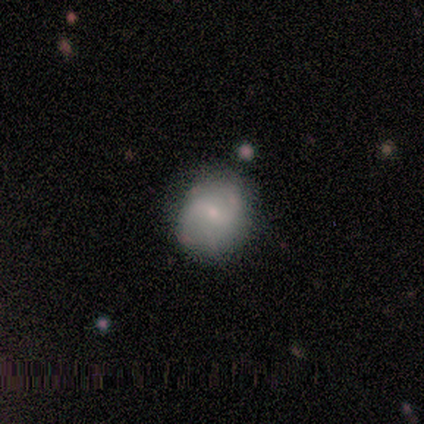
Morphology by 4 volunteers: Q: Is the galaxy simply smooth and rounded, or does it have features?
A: featured or disk — 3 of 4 (75%).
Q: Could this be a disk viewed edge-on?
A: no — 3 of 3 (100%).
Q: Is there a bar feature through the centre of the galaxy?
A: no — 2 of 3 (67%).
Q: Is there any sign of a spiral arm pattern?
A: yes — 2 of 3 (67%).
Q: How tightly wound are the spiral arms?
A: medium — 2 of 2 (100%).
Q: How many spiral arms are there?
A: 2 — 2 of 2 (100%).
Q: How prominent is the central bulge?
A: small — 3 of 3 (100%).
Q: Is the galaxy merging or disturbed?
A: none — 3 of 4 (75%).